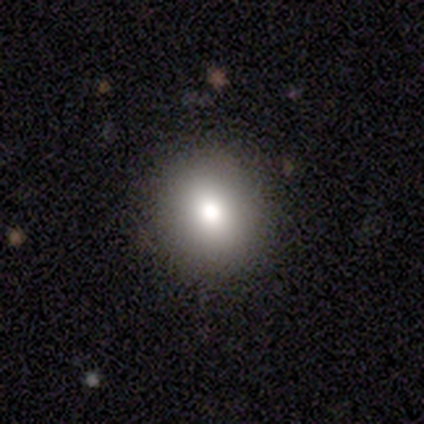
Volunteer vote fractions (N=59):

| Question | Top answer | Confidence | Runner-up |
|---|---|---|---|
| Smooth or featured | smooth | 71% | star or artifact (24%) |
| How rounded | round | 60% | in between (38%) |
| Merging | none | 87% | minor disturbance (13%) |